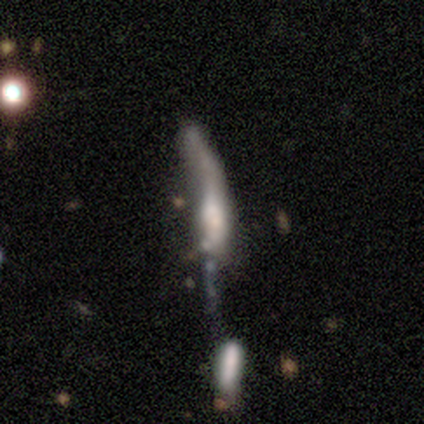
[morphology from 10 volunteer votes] smooth_or_featured: smooth (p=0.60) [alt: featured or disk p=0.40]
how_rounded: cigar-shaped (p=0.83) [alt: in between p=0.17]
merging: major disturbance (p=0.40) [alt: none p=0.30]